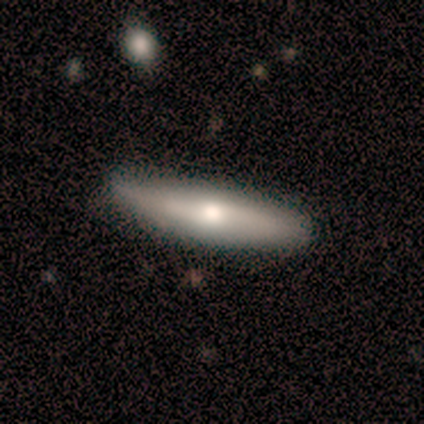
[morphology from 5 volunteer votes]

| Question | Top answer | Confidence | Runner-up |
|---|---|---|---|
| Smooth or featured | featured or disk | 60% | smooth (20%) |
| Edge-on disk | yes | 100% | — |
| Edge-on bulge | rounded | 100% | — |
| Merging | none | 50% | tied: minor disturbance (50%) |